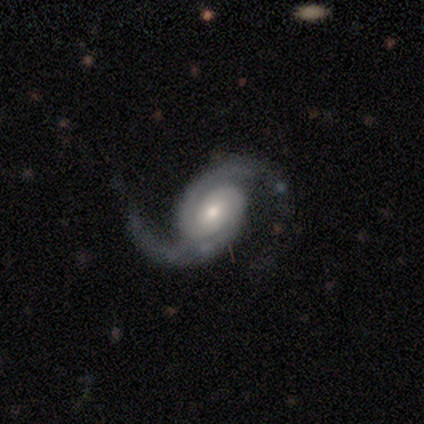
Smooth or featured? featured or disk (87%)
Edge-on disk? no (98%)
Bar? no (59%)
Spiral arms? yes (95%)
Spiral winding? medium (41%)
Spiral arm count? 2 (95%)
Bulge size? moderate (51%)
Merging? none (80%)